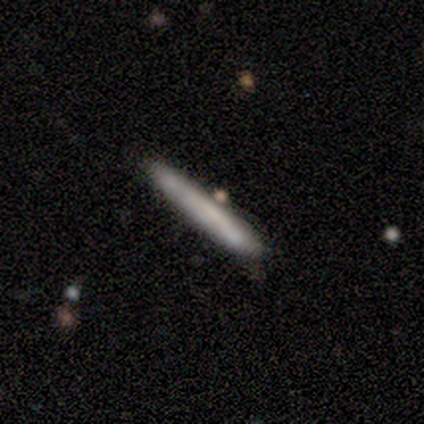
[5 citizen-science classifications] Smooth or featured? smooth (60%)
How rounded? cigar-shaped (100%)
Merging? none (80%)